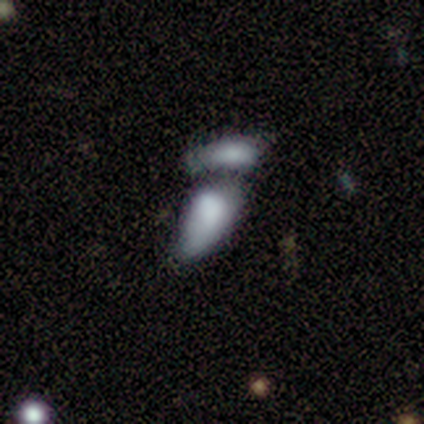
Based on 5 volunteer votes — Morphology: type=smooth (60%); roundness=in between (100%); merging=merger (100%).